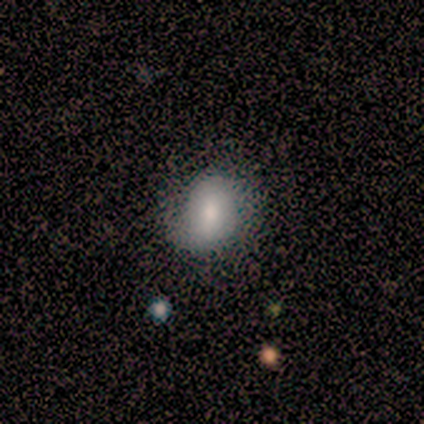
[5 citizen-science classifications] This is clearly a smooth galaxy (80%). How rounded: likely in between (75%). Merging: marginally none (40%, tied with major disturbance).